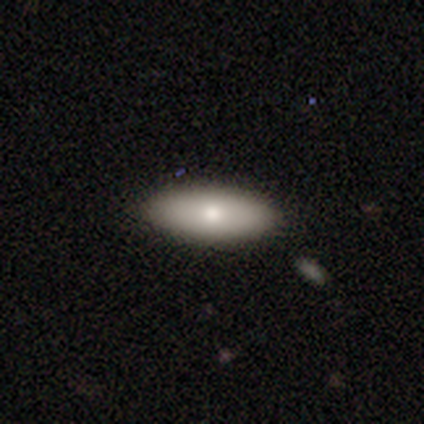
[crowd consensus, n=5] Q: Smooth or featured?
A: smooth (40%); tied with: star or artifact (40%)
Q: How rounded?
A: in between (100%)
Q: Merging?
A: none (100%)